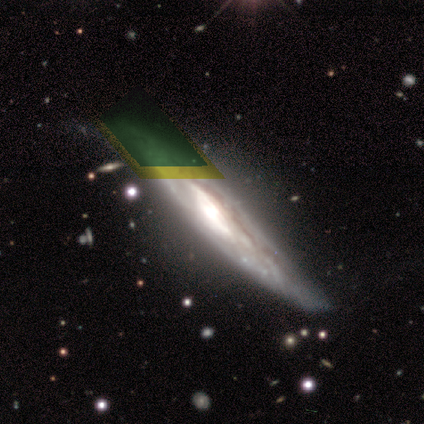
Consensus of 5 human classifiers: smooth-or-featured: featured or disk: 100% | smooth: 0% | star or artifact: 0%
  disk-edge-on: no: 60% | yes: 40%
    bar: no: 67% | strong: 33% | weak: 0%
    has-spiral-arms: yes: 67% | no: 33%
      spiral-winding: tight: 50% (tied) | loose: 50% (tied) | medium: 0%
      spiral-arm-count: 2: 50% (tied) | can't tell: 50% (tied) | 1: 0% | 3: 0% | 4: 0% | more than 4: 0%
    bulge-size: moderate: 67% | dominant: 33% | large: 0% | small: 0% | none: 0%
  merging: none: 100% | minor disturbance: 0% | major disturbance: 0% | merger: 0%